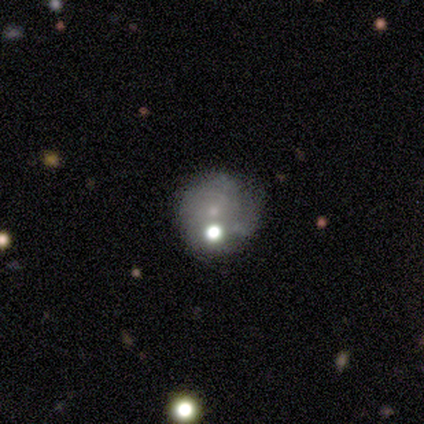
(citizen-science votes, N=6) Volunteers were most divided on "merging": minor disturbance: 60%, none: 20%, major disturbance: 20%, merger: 0%. More confident: how rounded — round (100%); smooth or featured — smooth (67%).